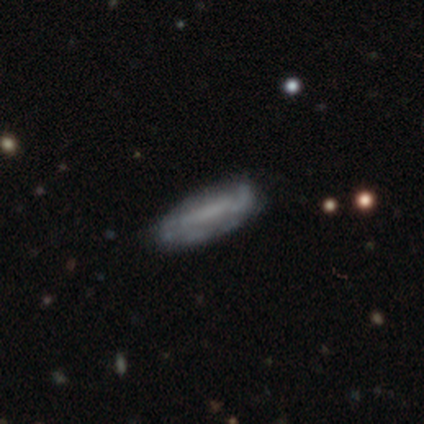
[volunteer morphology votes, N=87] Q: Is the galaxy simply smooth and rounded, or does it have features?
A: featured or disk — 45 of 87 (52%).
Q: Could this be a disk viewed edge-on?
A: no — 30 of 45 (67%).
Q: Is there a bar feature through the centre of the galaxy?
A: no — 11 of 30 (37%).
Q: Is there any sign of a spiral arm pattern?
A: no — 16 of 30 (53%).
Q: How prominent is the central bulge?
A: none — 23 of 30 (77%).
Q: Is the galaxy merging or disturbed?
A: none — 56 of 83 (67%).